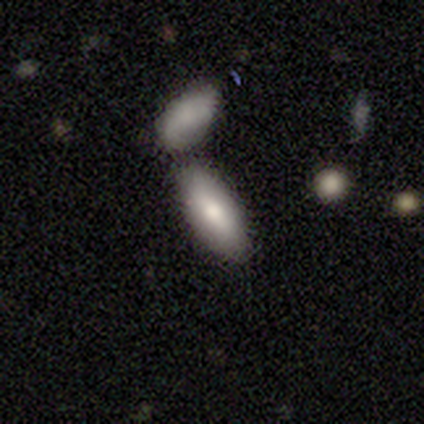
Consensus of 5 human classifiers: Smooth or featured: smooth — 80% (featured or disk — 20%)
How rounded: in between — 75% (cigar-shaped — 25%)
Merging: none — 40% (tied with merger — 40%)